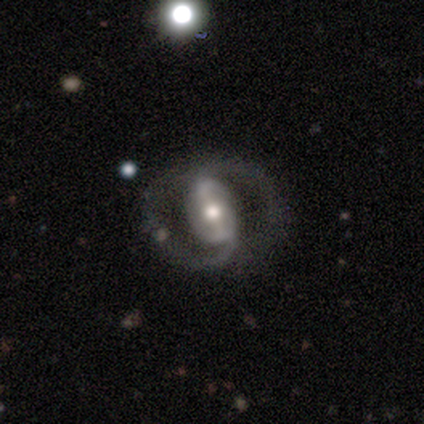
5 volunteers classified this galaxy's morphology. featured or disk 80%, star or artifact 20%, smooth 0%. Down the decision tree: edge-on disk — no (100%); bar — strong (75%); spiral arms — yes (75%); spiral arm count — 2 (100%); spiral winding — medium (100%); bulge size — moderate (100%); merging — none (75%).